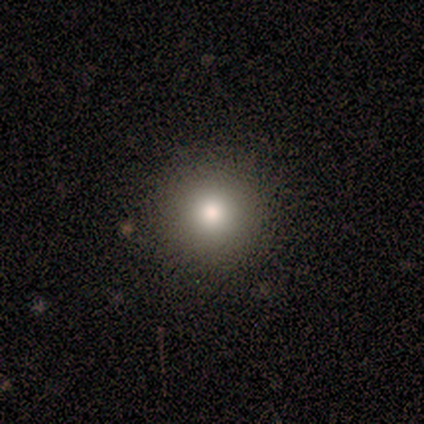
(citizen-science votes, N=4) Volunteers were most divided on "smooth or featured" (2-way tie): smooth: 50%, star or artifact: 50%, featured or disk: 0%. More confident: how rounded — round (100%); merging — none (100%).